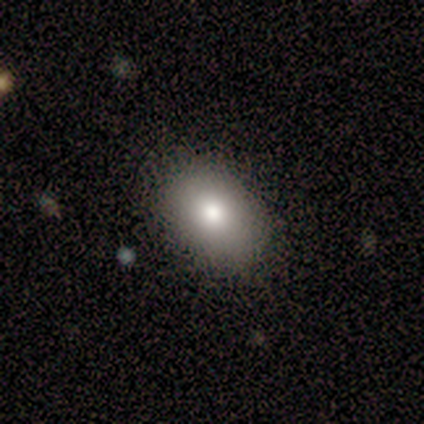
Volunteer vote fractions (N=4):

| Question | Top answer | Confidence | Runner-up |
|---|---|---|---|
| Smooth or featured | smooth | 100% | — |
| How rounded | in between | 100% | — |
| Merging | none | 100% | — |